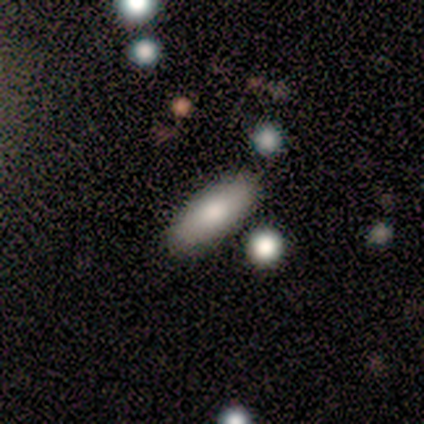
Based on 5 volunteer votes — A smooth galaxy with no disk features (80%) that is in between round and cigar-shaped (75%).

Vote fractions:
- Smooth or featured? smooth: 80% / featured or disk: 20% / star or artifact: 0%
- How rounded? in between: 75% / cigar-shaped: 25% / round: 0%
- Merging? none: 80% / minor disturbance: 20% / major disturbance: 0% / merger: 0%